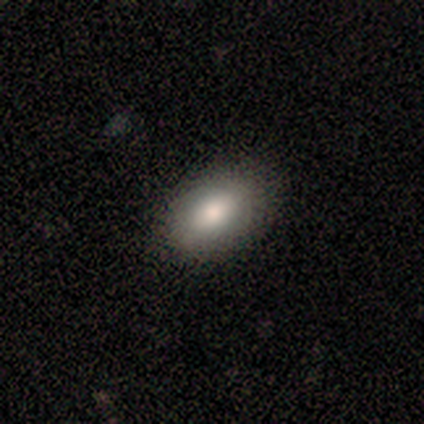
A smooth galaxy with no disk features (100%) that is in between round and cigar-shaped (100%).

Vote fractions:
- Smooth or featured? smooth: 100% / featured or disk: 0% / star or artifact: 0%
- How rounded? in between: 100% / round: 0% / cigar-shaped: 0%
- Merging? none: 80% / minor disturbance: 20% / major disturbance: 0% / merger: 0%